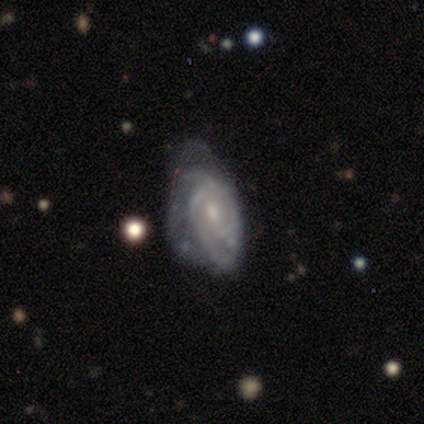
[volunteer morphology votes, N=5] A featured or disk galaxy (100%) with no bar (75%), 2 (50%, tied with 3) tight (75%) spiral arms (100%) and a small central bulge (50%). Merging: none (80%).